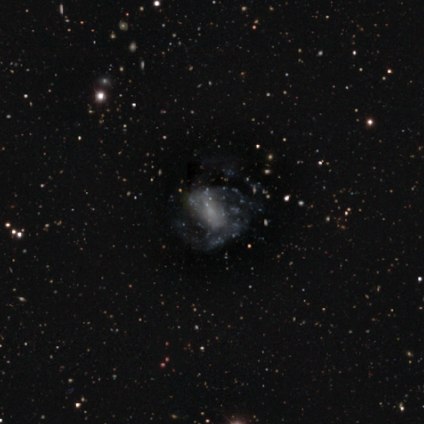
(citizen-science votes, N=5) featured or disk 80%, star or artifact 20%, smooth 0%. Down the decision tree: edge-on disk — no (100%); bar — no (50%); spiral arms — yes (75%); spiral arm count — 2 (33%, tied with 3 and can't tell); spiral winding — medium (100%); bulge size — moderate (50%, tied with small); merging — none (50%, tied with major disturbance).